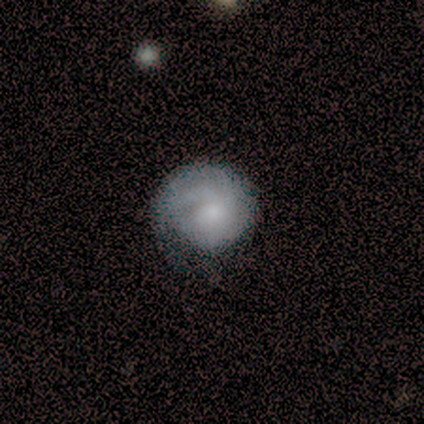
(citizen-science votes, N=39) This is likely a featured or disk galaxy (64%). It is clearly not viewed edge-on (100%). Bar: clearly no (88%). Spiral arm pattern: clearly yes (84%). Spiral arm count: possibly can't tell (48%). Spiral winding: likely tight (71%). Central bulge: likely small (64%). Merging: marginally none (31%).